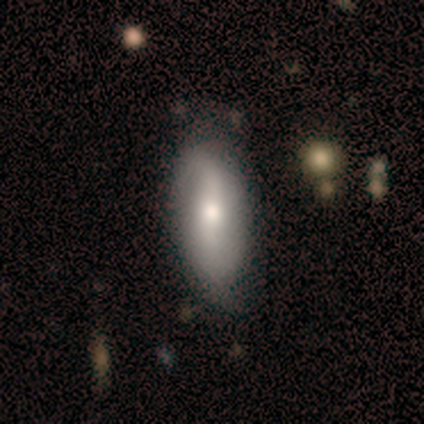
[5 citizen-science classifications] Smooth or featured?
  - smooth: 60% *
  - featured or disk: 40%
  - star or artifact: 0%
How rounded?
  - in between: 67% *
  - cigar-shaped: 33%
  - round: 0%
Merging?
  - none: 100% *
  - minor disturbance: 0%
  - major disturbance: 0%
  - merger: 0%